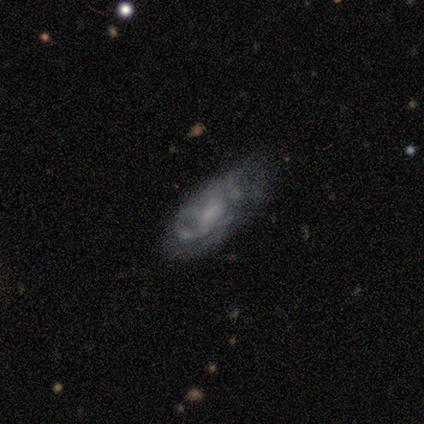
A featured or disk galaxy (60%) with no bar (67%), no spiral arms (67%) and a small central bulge (67%).

Vote fractions:
- Smooth or featured? featured or disk: 60% / smooth: 40% / star or artifact: 0%
- Edge-on disk? no: 100% / yes: 0%
- Bar? no: 67% / weak: 33% / strong: 0%
- Spiral arms? no: 67% / yes: 33%
- Bulge size? small: 67% / none: 33% / dominant: 0% / large: 0% / moderate: 0%
- Merging? minor disturbance: 60% / none: 20% / merger: 20% / major disturbance: 0%